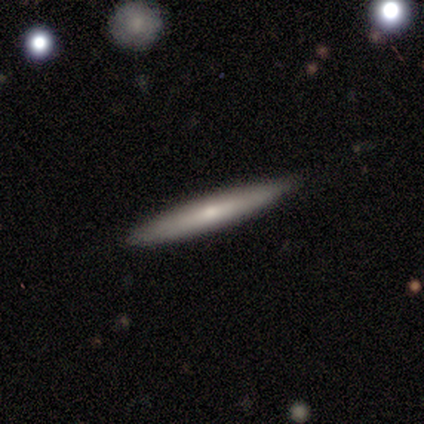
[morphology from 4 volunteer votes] Q: Smooth or featured?
A: featured or disk (75%); runner-up: smooth (25%)
Q: Edge-on disk?
A: yes (100%)
Q: Edge-on bulge?
A: rounded (67%); runner-up: none (33%)
Q: Merging?
A: none (100%)